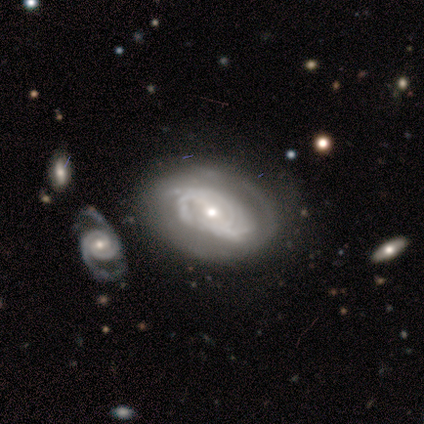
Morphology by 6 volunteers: This appears to be a featured or disk galaxy (100%) with no bar (50%), 2 (40%, tied with can't tell) tight (80%) spiral arms (83%) and a moderate central bulge (50%). Merging: none (50%).